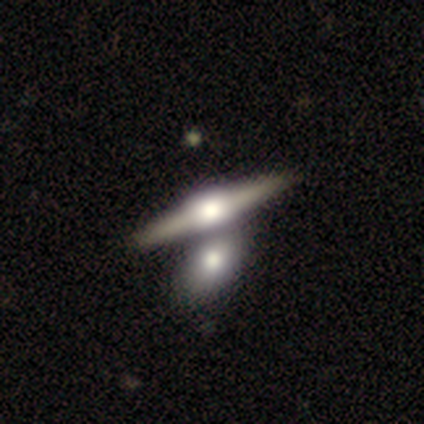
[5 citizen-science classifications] Morphology: type=featured or disk (100%); edge-on=yes (100%); edge-on bulge=rounded (80%); merging=none (60%).